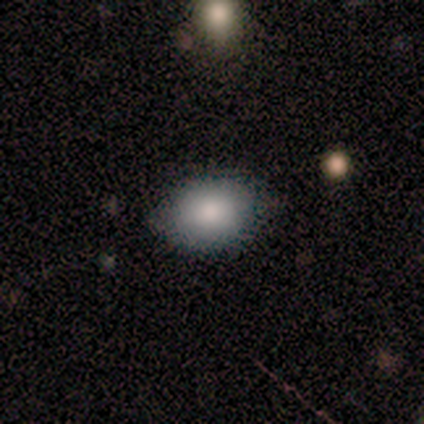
Q: Smooth or featured?
A: smooth (100%)
Q: How rounded?
A: in between (100%)
Q: Merging?
A: none (75%); runner-up: minor disturbance (25%)